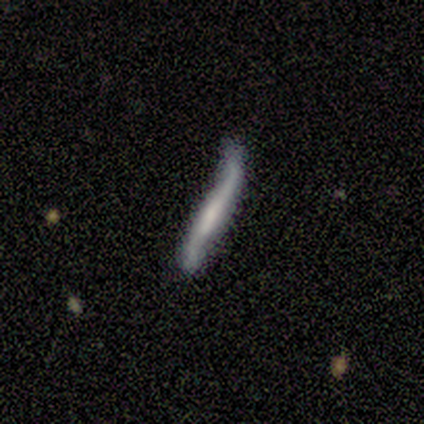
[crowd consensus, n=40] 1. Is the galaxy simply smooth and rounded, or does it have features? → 75% featured or disk, 22% smooth, 2% star or artifact.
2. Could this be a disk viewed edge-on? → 70% yes, 30% no.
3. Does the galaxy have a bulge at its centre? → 38% boxy (tied), 38% none (tied), 24% rounded.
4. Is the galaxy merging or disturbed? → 41% minor disturbance, 36% none, 18% major disturbance, 5% merger.